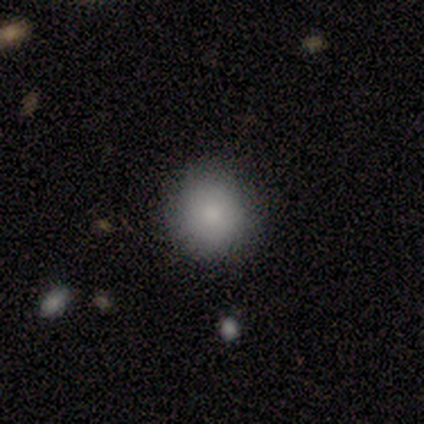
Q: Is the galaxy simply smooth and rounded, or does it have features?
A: smooth — 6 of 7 (86%).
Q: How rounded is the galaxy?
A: round — 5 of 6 (83%).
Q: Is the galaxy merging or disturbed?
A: none — 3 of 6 (50%, tied with minor disturbance).